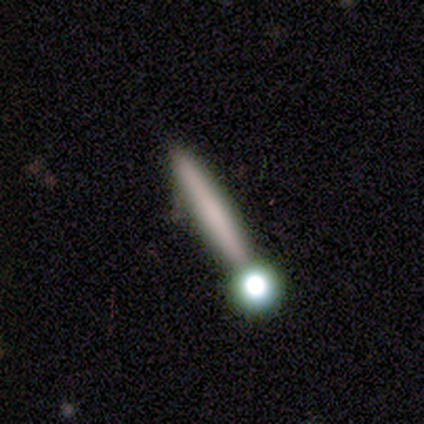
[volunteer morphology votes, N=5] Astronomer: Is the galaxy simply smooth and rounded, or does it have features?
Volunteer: featured or disk — 60% (runner-up: smooth, 40%).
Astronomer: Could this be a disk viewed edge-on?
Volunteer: yes — 67%.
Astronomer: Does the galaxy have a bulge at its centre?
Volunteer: none — 50%, tied with rounded at 50%.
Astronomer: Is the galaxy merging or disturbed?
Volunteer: none — 80%.